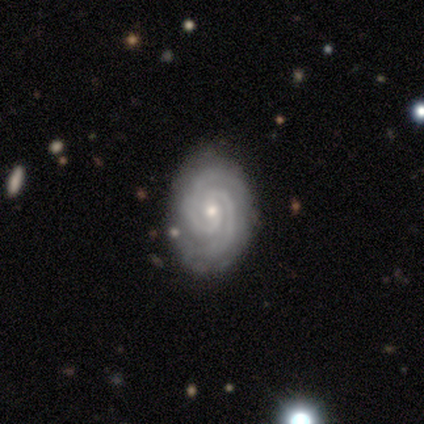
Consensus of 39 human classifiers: featured or disk 90%, star or artifact 8%, smooth 3%. Down the decision tree: edge-on disk — no (89%); bar — no (55%); spiral arms — yes (100%); spiral arm count — 2 (84%); spiral winding — tight (71%); bulge size — small (61%); merging — none (86%).